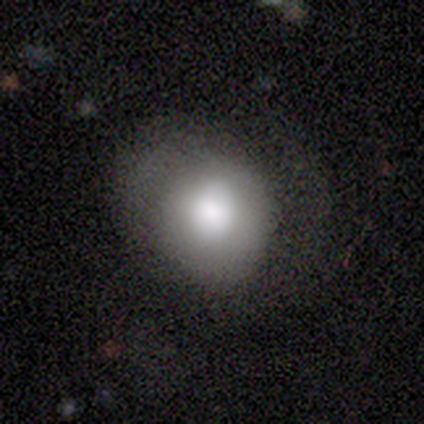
smooth 73%, featured or disk 22%, star or artifact 5%. Down the decision tree: how rounded — round (78%); merging — none (49%).